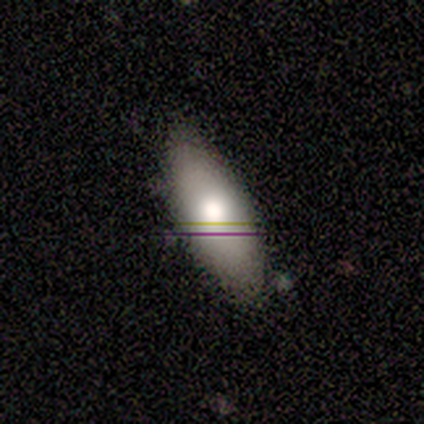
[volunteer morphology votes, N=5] Overall: smooth (80%). How rounded: in between (75%). Merging: none (80%).